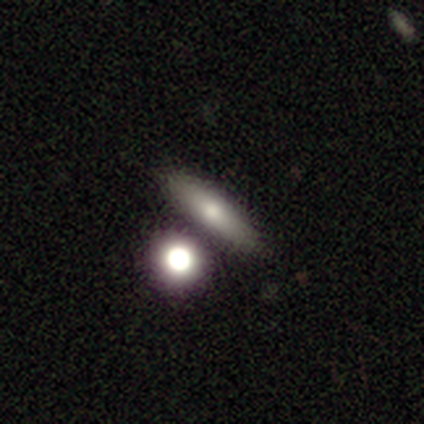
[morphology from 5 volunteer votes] smooth-or-featured: smooth: 80% | star or artifact: 20% | featured or disk: 0%
  how-rounded: cigar-shaped: 100% | round: 0% | in between: 0%
  merging: none: 50% | minor disturbance: 25% | merger: 25% | major disturbance: 0%